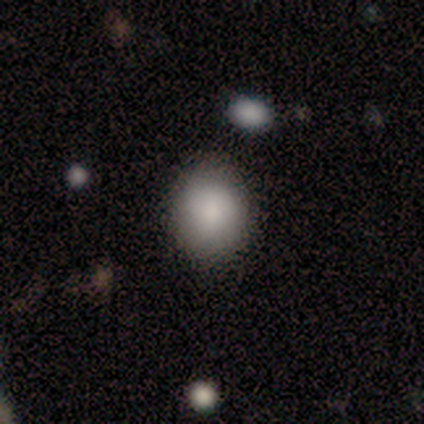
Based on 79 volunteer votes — Q: Smooth or featured?
A: smooth (86%); runner-up: star or artifact (8%)
Q: How rounded?
A: round (57%); runner-up: in between (43%)
Q: Merging?
A: none (48%); runner-up: minor disturbance (4%)